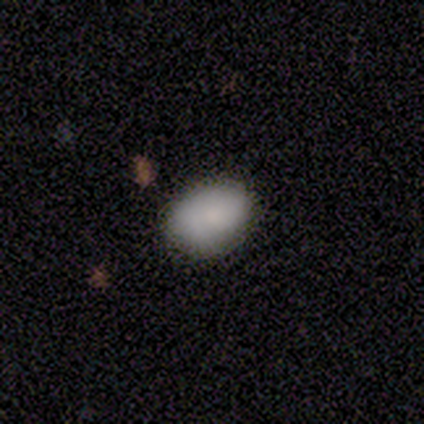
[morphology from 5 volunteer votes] Smooth or featured: smooth — 100%
How rounded: in between — 80% (round — 20%)
Merging: none — 80% (minor disturbance — 20%)